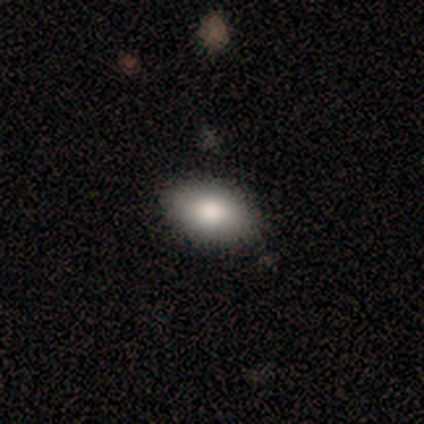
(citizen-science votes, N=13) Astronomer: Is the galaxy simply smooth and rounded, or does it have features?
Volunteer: smooth — 69%.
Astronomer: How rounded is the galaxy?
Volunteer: in between — 89%.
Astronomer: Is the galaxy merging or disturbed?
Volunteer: none — 92%.